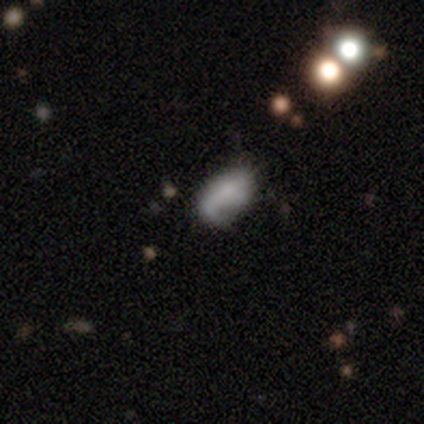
Smooth or featured? featured or disk (75%)
Edge-on disk? no (100%)
Bar? no (67%)
Spiral arms? yes (67%)
Spiral winding? loose (100%)
Spiral arm count? 1 (50%, tied with 2)
Bulge size? moderate (33%, tied with small and none)
Merging? none (25%, tied with minor disturbance, major disturbance and merger)